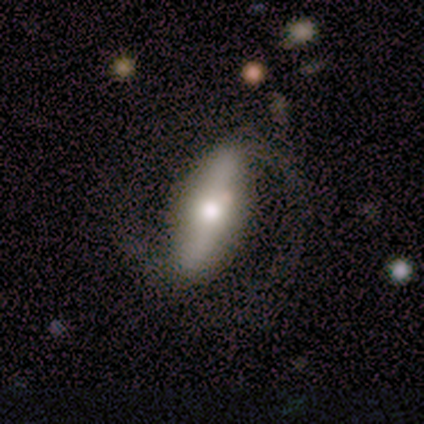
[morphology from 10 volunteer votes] A featured or disk galaxy (80%) with a strong bar (83%), 2 (80%) loose (80%) spiral arms (83%) and a moderate central bulge (83%). Merging: none (67%).